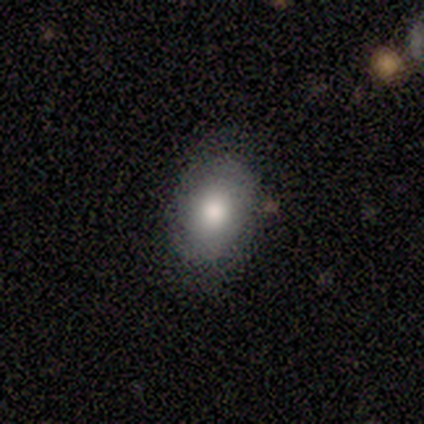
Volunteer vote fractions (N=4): Volunteers were most divided on "smooth or featured": smooth: 75%, featured or disk: 25%, star or artifact: 0%. More confident: how rounded — in between (100%); merging — none (75%).